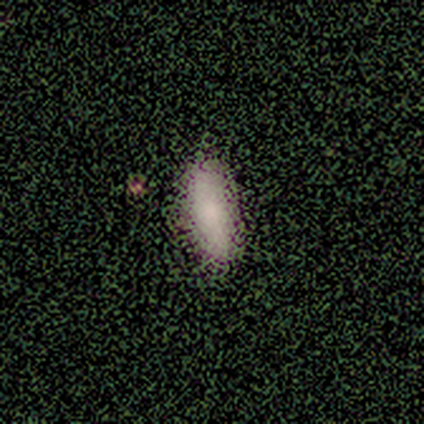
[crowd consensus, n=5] This appears to be a smooth galaxy with no disk features (100%) that is in between round and cigar-shaped (60%). Merging: none (80%).